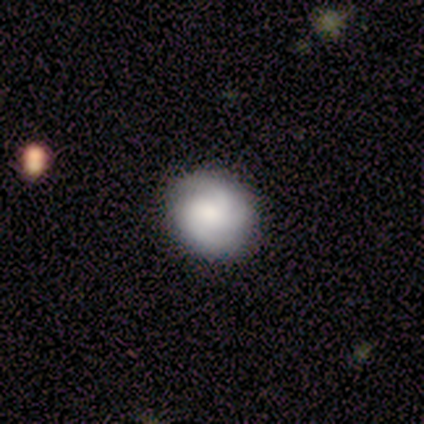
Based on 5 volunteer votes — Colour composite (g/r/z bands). It shows a featured or disk galaxy (80%) with no bar (75%), 3 (67%) medium (67%) spiral arms (75%) and a dominant central bulge (25%, tied with large, moderate and small). Merging: none (100%).